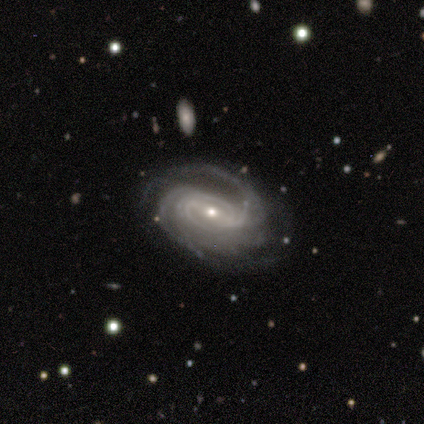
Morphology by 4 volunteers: A featured or disk galaxy (100%) with a weak bar (75%), 2 (25%, tied with 3, 4 and can't tell) tight (75%) spiral arms (100%) and a small central bulge (100%).

Vote fractions:
- Smooth or featured? featured or disk: 100% / smooth: 0% / star or artifact: 0%
- Edge-on disk? no: 100% / yes: 0%
- Bar? weak: 75% / strong: 25% / no: 0%
- Spiral arms? yes: 100% / no: 0%
- Spiral winding? tight: 75% / medium: 25% / loose: 0%
- Spiral arm count? 2: 25% (tied) / 3: 25% (tied) / 4: 25% (tied) / can't tell: 25% (tied) / 1: 0% / more than 4: 0%
- Bulge size? small: 100% / dominant: 0% / large: 0% / moderate: 0% / none: 0%
- Merging? none: 75% / major disturbance: 25% / minor disturbance: 0% / merger: 0%